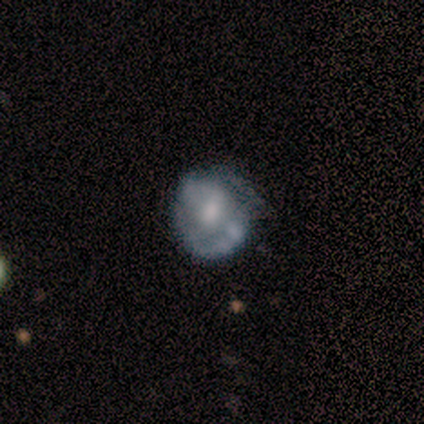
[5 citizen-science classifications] This appears to be a featured or disk galaxy (60%) with no bar (67%), 2 (50%, tied with can't tell) medium (100%) spiral arms (67%) and a small central bulge (67%). Merging: none (60%).